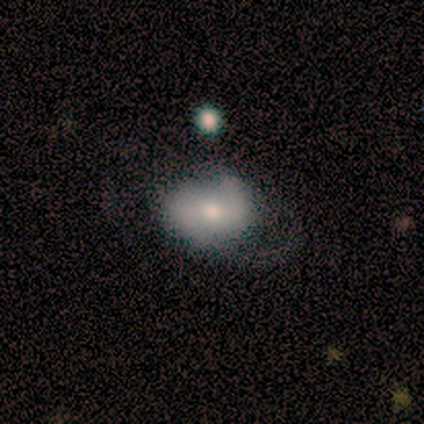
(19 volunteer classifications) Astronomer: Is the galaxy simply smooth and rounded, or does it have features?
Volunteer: smooth — 53% (runner-up: featured or disk, 47%).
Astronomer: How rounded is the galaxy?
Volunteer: in between — 80%.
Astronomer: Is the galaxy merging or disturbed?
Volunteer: minor disturbance — 37% (runner-up: none, 32%).